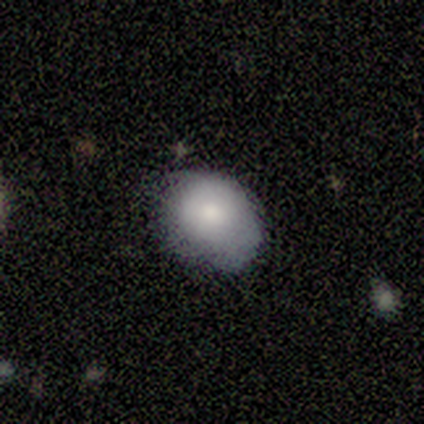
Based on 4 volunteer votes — Morphology: type=smooth (100%); roundness=in between (75%); merging=none (75%).